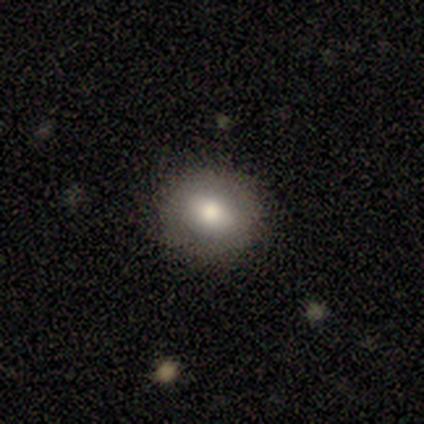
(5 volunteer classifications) smooth_or_featured: smooth (p=0.80) [alt: featured or disk p=0.20]
how_rounded: round (p=0.50) [tied with: in between p=0.50]
merging: none (p=0.80) [alt: major disturbance p=0.20]